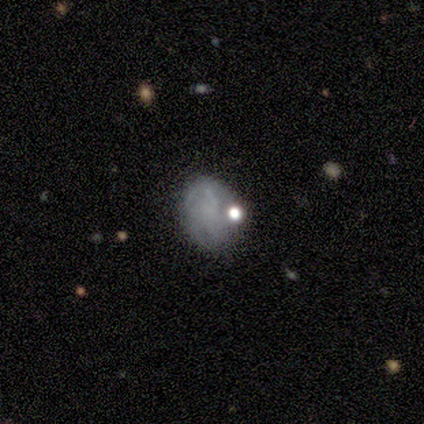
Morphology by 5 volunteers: A smooth galaxy with no disk features (40%, tied with featured or disk) that is round (50%, tied with in between). Merging: merger (50%).